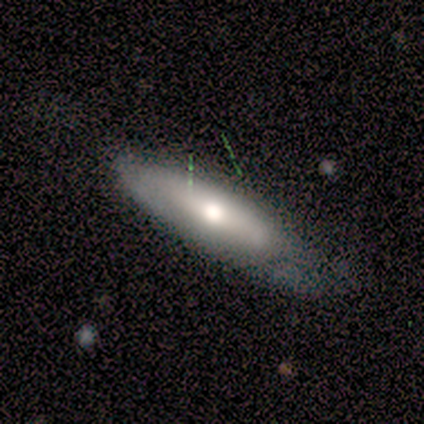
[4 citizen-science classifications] Smooth or featured?
  - smooth: 75% *
  - featured or disk: 25%
  - star or artifact: 0%
How rounded?
  - cigar-shaped: 67% *
  - in between: 33%
  - round: 0%
Merging?
  - none: 75% *
  - minor disturbance: 25%
  - major disturbance: 0%
  - merger: 0%